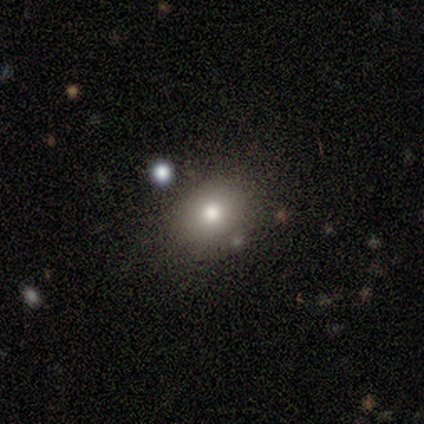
Q: Smooth or featured?
A: smooth (60%); runner-up: featured or disk (20%)
Q: How rounded?
A: round (67%); runner-up: in between (33%)
Q: Merging?
A: none (75%); runner-up: minor disturbance (25%)